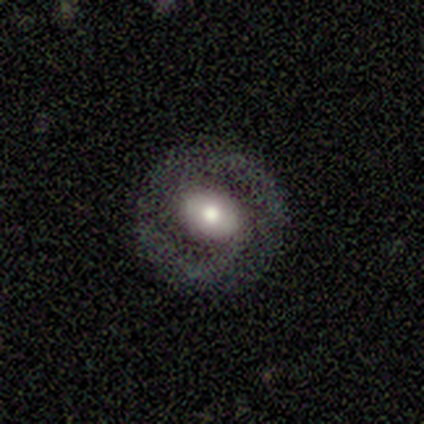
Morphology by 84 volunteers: A featured or disk galaxy (57%) with no bar (46%), 2 (82%) tight (54%) spiral arms (58%) and a moderate central bulge (65%).

Vote fractions:
- Smooth or featured? featured or disk: 57% / smooth: 32% / star or artifact: 11%
- Edge-on disk? no: 100% / yes: 0%
- Bar? no: 46% / weak: 44% / strong: 10%
- Spiral arms? yes: 58% / no: 42%
- Spiral winding? tight: 54% / medium: 39% / loose: 7%
- Spiral arm count? 2: 82% / 1: 11% / can't tell: 7% / 3: 0% / 4: 0% / more than 4: 0%
- Bulge size? moderate: 65% / large: 33% / small: 2% / dominant: 0% / none: 0%
- Merging? none: 87% / minor disturbance: 8% / major disturbance: 5% / merger: 0%